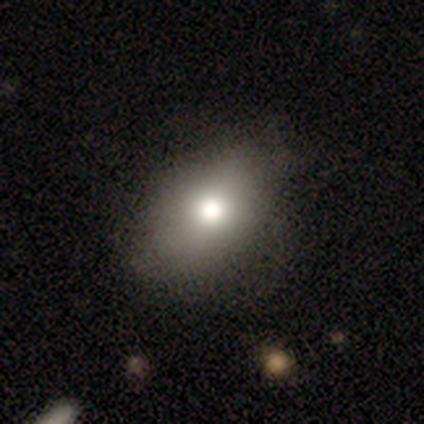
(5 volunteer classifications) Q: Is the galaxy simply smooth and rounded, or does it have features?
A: smooth — 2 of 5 (40%, tied with featured or disk).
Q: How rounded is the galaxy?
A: in between — 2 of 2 (100%).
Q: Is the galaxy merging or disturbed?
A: none — 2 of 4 (50%, tied with minor disturbance).